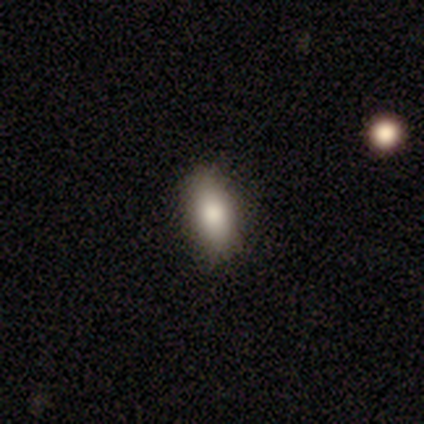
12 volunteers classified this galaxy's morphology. smooth_or_featured: smooth (p=0.83) [alt: featured or disk p=0.08]
how_rounded: in between (p=0.80) [alt: cigar-shaped p=0.20]
merging: none (p=0.82) [alt: minor disturbance p=0.18]